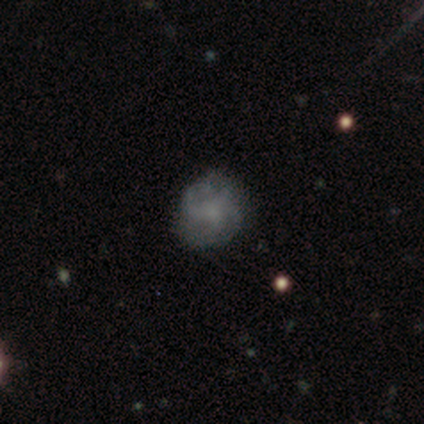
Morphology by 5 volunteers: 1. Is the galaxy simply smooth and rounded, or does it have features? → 60% featured or disk, 20% smooth, 20% star or artifact.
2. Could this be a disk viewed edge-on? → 100% no, 0% yes.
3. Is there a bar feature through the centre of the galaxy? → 67% no, 33% weak, 0% strong.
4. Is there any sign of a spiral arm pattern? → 67% yes, 33% no.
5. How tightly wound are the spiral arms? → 50% tight (tied), 50% medium (tied), 0% loose.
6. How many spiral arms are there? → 100% can't tell, 0% 1, 0% 2, 0% 3, 0% 4, 0% more than 4.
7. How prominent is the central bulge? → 67% small, 33% none, 0% dominant, 0% large, 0% moderate.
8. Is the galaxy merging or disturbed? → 100% none, 0% minor disturbance, 0% major disturbance, 0% merger.